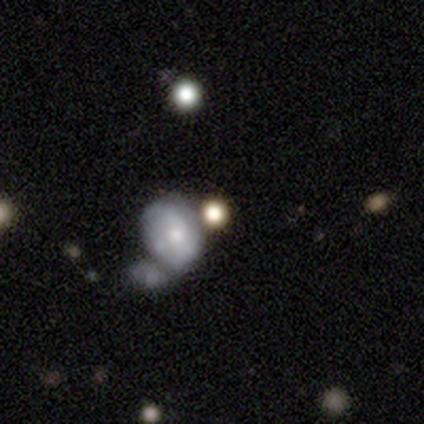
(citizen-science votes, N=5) Q: Smooth or featured?
A: featured or disk (60%); runner-up: smooth (40%)
Q: Edge-on disk?
A: no (100%)
Q: Bar?
A: no (100%)
Q: Spiral arms?
A: yes (100%)
Q: Spiral winding?
A: tight (67%); runner-up: medium (33%)
Q: Spiral arm count?
A: can't tell (67%); runner-up: 1 (33%)
Q: Bulge size?
A: moderate (67%); runner-up: large (33%)
Q: Merging?
A: none (60%); runner-up: merger (40%)